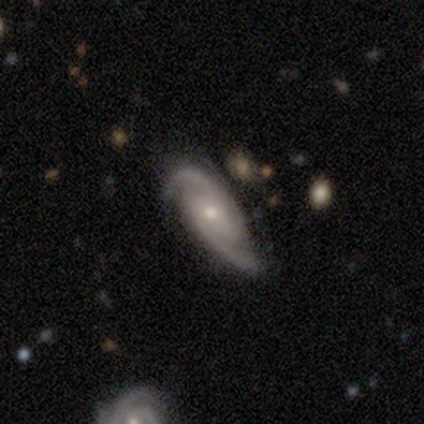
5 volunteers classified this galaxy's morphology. smooth-or-featured: featured or disk: 100% | smooth: 0% | star or artifact: 0%
  disk-edge-on: no: 100% | yes: 0%
    bar: weak: 60% | no: 40% | strong: 0%
    has-spiral-arms: yes: 100% | no: 0%
      spiral-winding: tight: 60% | medium: 20% | loose: 20%
      spiral-arm-count: 2: 100% | 1: 0% | 3: 0% | 4: 0% | more than 4: 0% | can't tell: 0%
    bulge-size: small: 100% | dominant: 0% | large: 0% | moderate: 0% | none: 0%
  merging: none: 60% | minor disturbance: 20% | merger: 20% | major disturbance: 0%